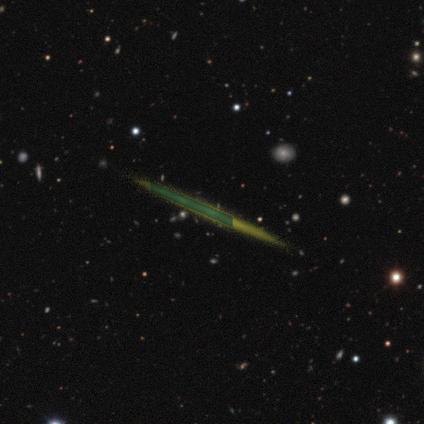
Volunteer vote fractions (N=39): This appears to be a featured or disk galaxy (51%) viewed edge-on (90%) with no central bulge (89%). Merging: none (57%).